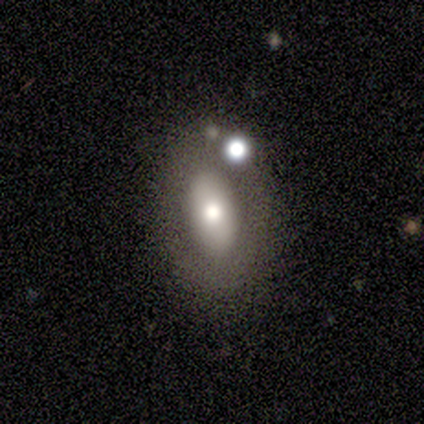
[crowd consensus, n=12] Smooth or featured?
  - smooth: 42% *
  - featured or disk: 33%
  - star or artifact: 25%
How rounded?
  - in between: 100% *
  - round: 0%
  - cigar-shaped: 0%
Merging?
  - none: 78% *
  - major disturbance: 22%
  - minor disturbance: 0%
  - merger: 0%